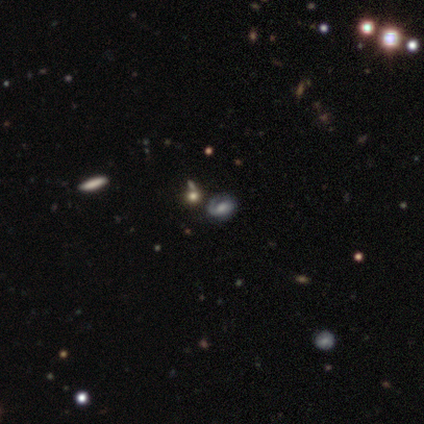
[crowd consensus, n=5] Overall: featured or disk (60%; smooth 40%). Edge-on disk: no (100%). Bar: no (67%; weak 33%). Spiral arms: yes (100%). Spiral arm count: 1 (67%; 2 33%). Spiral winding: medium (67%; tight 33%). Bulge size: moderate (67%; small 33%). Merging: none (80%).